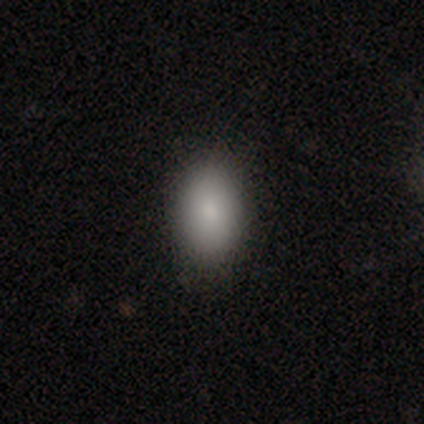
Consensus on every question: smooth or featured — smooth (100%); how rounded — in between (100%); merging — none (100%).